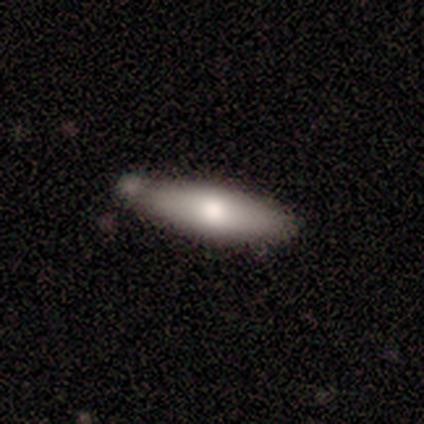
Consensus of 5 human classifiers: Overall: smooth (60%; featured or disk 40%). How rounded: cigar-shaped (100%). Merging: none (80%).